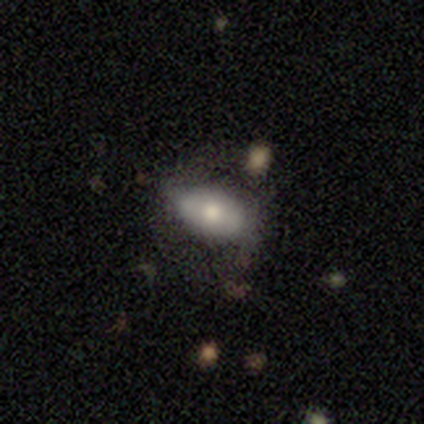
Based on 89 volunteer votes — Morphology: type=smooth (57%); roundness=in between (88%); merging=none (60%).